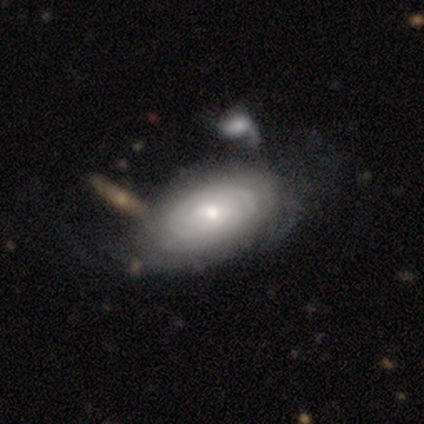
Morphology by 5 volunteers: featured or disk 60%, smooth 40%, star or artifact 0%. Down the decision tree: edge-on disk — no (100%); bar — no (100%); spiral arms — yes (100%); spiral arm count — can't tell (67%); spiral winding — tight (67%); bulge size — moderate (67%); merging — minor disturbance (40%, tied with major disturbance).